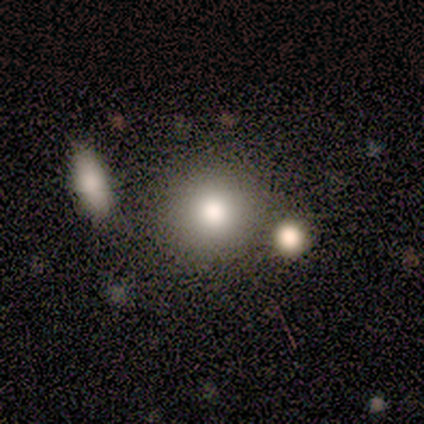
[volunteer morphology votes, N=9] Smooth or featured?
  - smooth: 78% *
  - featured or disk: 11%
  - star or artifact: 11%
How rounded?
  - round: 100% *
  - in between: 0%
  - cigar-shaped: 0%
Merging?
  - none: 88% *
  - minor disturbance: 12%
  - major disturbance: 0%
  - merger: 0%